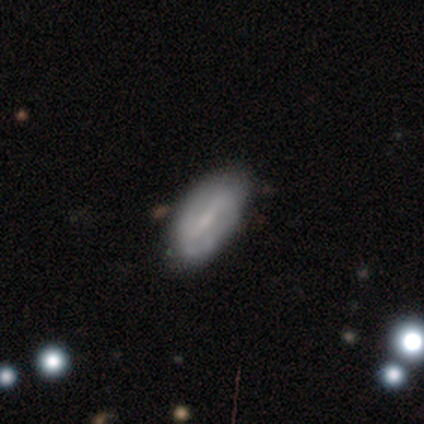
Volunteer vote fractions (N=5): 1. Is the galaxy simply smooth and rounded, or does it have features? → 60% smooth, 40% featured or disk, 0% star or artifact.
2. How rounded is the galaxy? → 100% in between, 0% round, 0% cigar-shaped.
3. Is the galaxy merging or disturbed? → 60% none, 40% minor disturbance, 0% major disturbance, 0% merger.